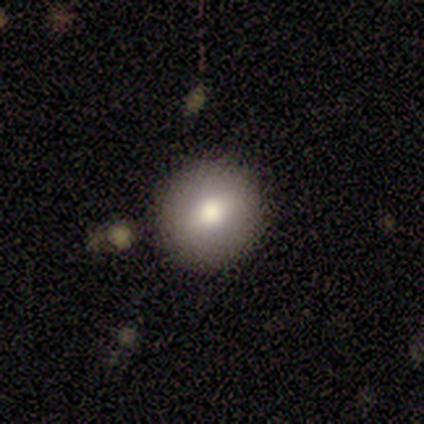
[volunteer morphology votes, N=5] Overall: smooth (100%). How rounded: round (100%). Merging: none (80%).